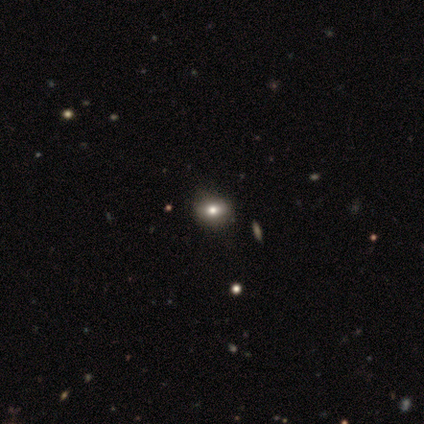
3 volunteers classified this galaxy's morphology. This is likely a featured or disk galaxy (67%). It is possibly viewed edge-on (50%, tied with no). Edge-on bulge: clearly none (100%). Merging: likely none (67%).